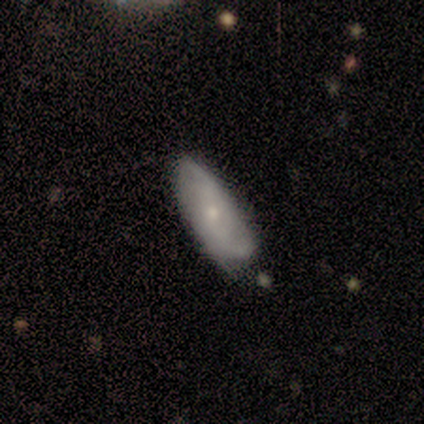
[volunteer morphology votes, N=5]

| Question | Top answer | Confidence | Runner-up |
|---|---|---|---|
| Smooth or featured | featured or disk | 60% | star or artifact (40%) |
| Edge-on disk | no | 100% | — |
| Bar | no | 67% | weak (33%) |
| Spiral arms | no | 67% | yes (33%) |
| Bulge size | small | 100% | — |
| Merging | minor disturbance | 67% | none (33%) |